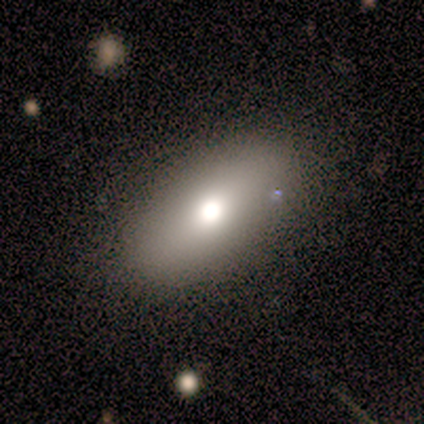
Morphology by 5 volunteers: Overall: smooth (60%; featured or disk 20%). How rounded: in between (100%). Merging: none (75%).